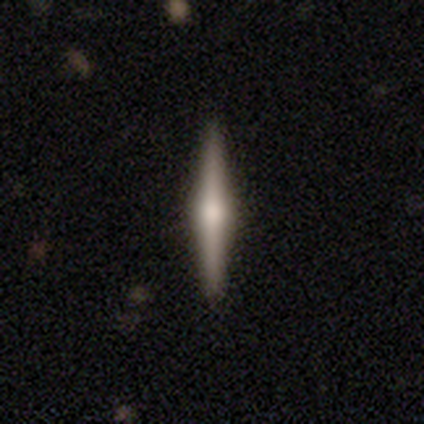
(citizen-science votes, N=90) smooth-or-featured: featured or disk: 70% | smooth: 22% | star or artifact: 8%
  disk-edge-on: yes: 97% | no: 3%
    edge-on-bulge: rounded: 92% | boxy: 7% | none: 2%
  merging: none: 99% | minor disturbance: 1% | major disturbance: 0% | merger: 0%